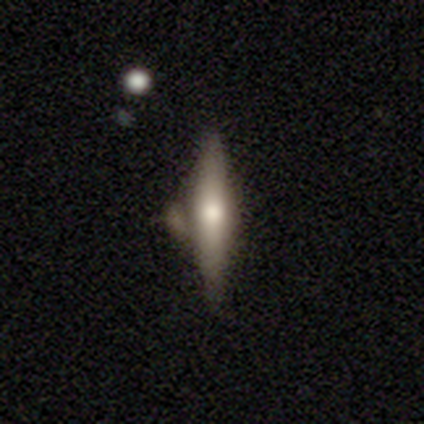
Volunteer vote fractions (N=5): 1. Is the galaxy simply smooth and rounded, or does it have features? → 60% smooth, 40% featured or disk, 0% star or artifact.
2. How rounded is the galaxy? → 100% cigar-shaped, 0% round, 0% in between.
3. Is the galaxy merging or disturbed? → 40% none (tied), 40% minor disturbance (tied), 20% merger, 0% major disturbance.